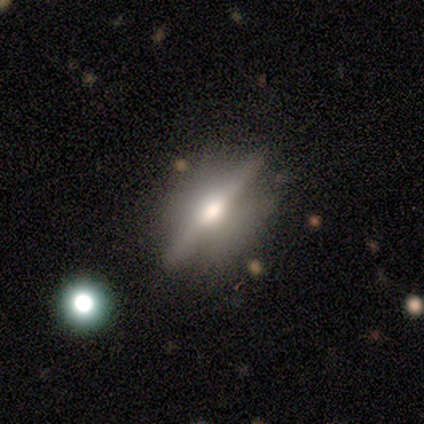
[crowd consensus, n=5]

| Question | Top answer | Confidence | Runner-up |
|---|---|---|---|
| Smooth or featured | featured or disk | 60% | smooth (20%) |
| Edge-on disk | yes | 100% | — |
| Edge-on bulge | rounded | 100% | — |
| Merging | none | 100% | — |